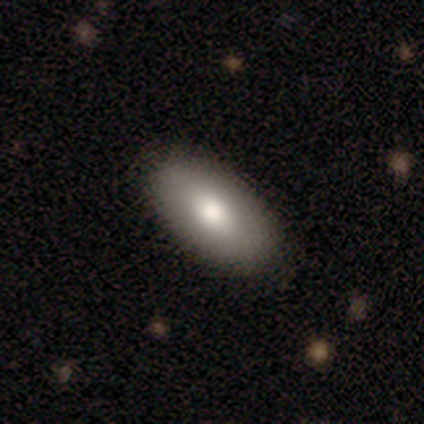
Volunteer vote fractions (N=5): Volunteers were most divided on "smooth or featured": smooth: 60%, featured or disk: 40%, star or artifact: 0%. More confident: how rounded — in between (67%); merging — none (60%).